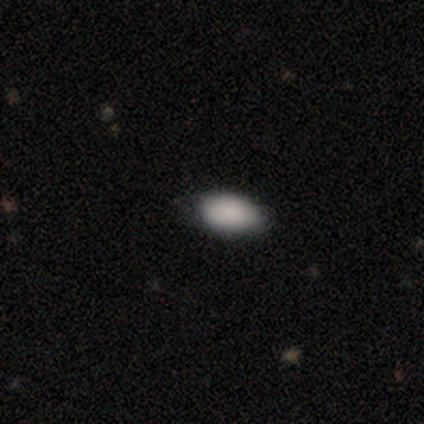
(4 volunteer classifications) This appears to be a smooth galaxy with no disk features (75%) that is in between round and cigar-shaped (100%). Merging: none (100%).